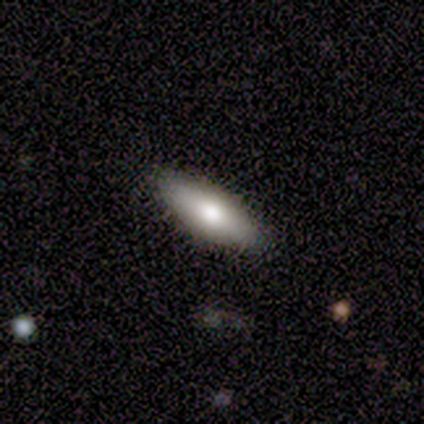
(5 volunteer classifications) smooth 100%, featured or disk 0%, star or artifact 0%. Down the decision tree: how rounded — cigar-shaped (80%); merging — none (60%).